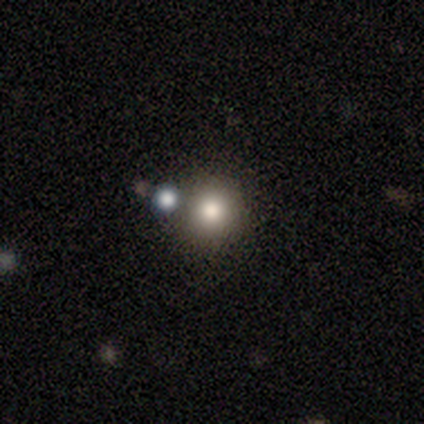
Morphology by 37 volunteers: Volunteers were most divided on "merging": none: 63%, merger: 17%, minor disturbance: 10%, major disturbance: 10%. More confident: how rounded — round (96%); smooth or featured — smooth (70%).